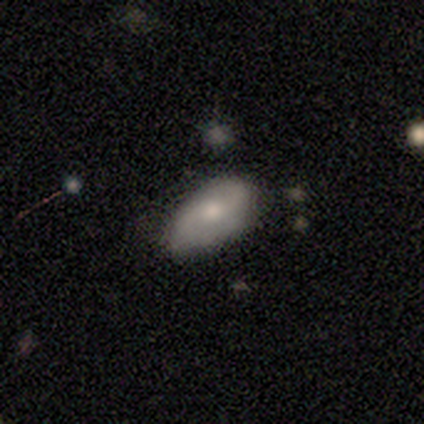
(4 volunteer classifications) smooth_or_featured: smooth (p=0.50) [alt: featured or disk p=0.25]
how_rounded: in between (p=1.00)
merging: none (p=0.67) [alt: minor disturbance p=0.33]